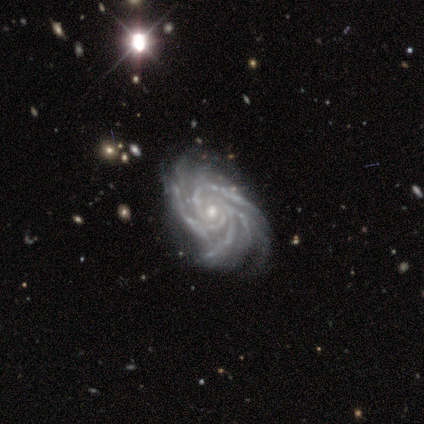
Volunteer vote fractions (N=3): A featured or disk galaxy (100%) with a strong bar (33%, tied with weak and no), 3 (33%, tied with 4 and more than 4) tight (100%) spiral arms (100%) and a moderate central bulge (67%). Merging: none (100%).